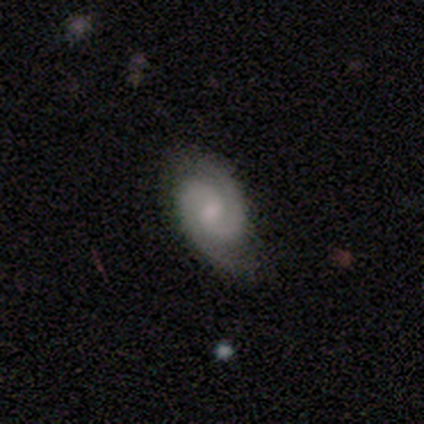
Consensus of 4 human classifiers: smooth-or-featured: featured or disk: 75% | smooth: 25% | star or artifact: 0%
  disk-edge-on: no: 100% | yes: 0%
    bar: strong: 33% (tied) | weak: 33% (tied) | no: 33% (tied)
    has-spiral-arms: yes: 100% | no: 0%
      spiral-winding: tight: 100% | medium: 0% | loose: 0%
      spiral-arm-count: 2: 100% | 1: 0% | 3: 0% | 4: 0% | more than 4: 0% | can't tell: 0%
    bulge-size: moderate: 67% | small: 33% | dominant: 0% | large: 0% | none: 0%
  merging: none: 75% | major disturbance: 25% | minor disturbance: 0% | merger: 0%